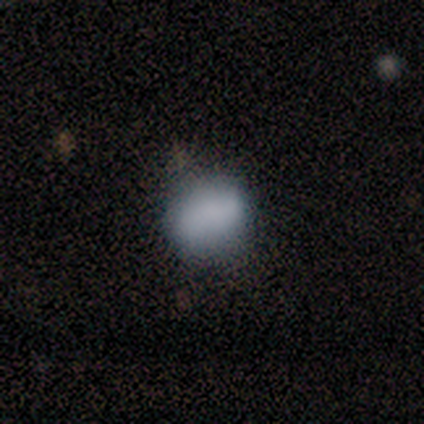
Smooth or featured?
  - smooth: 100% *
  - featured or disk: 0%
  - star or artifact: 0%
How rounded?
  - in between: 80% *
  - round: 20%
  - cigar-shaped: 0%
Merging?
  - none: 80% *
  - minor disturbance: 20%
  - major disturbance: 0%
  - merger: 0%